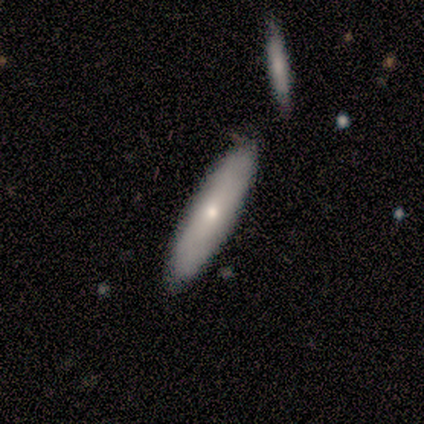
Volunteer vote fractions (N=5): Smooth or featured: smooth — 80% (featured or disk — 20%)
How rounded: cigar-shaped — 75% (in between — 25%)
Merging: none — 100%